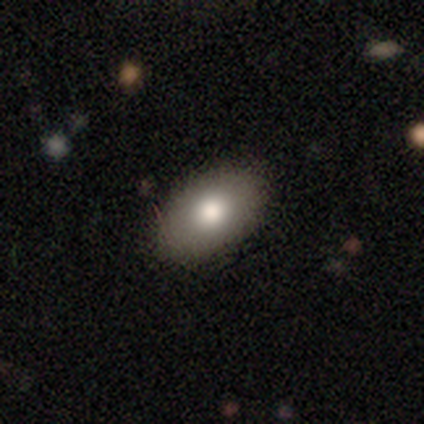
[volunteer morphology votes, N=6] smooth-or-featured: smooth: 67% | featured or disk: 17% | star or artifact: 17%
  how-rounded: in between: 75% | round: 25% | cigar-shaped: 0%
  merging: none: 100% | minor disturbance: 0% | major disturbance: 0% | merger: 0%